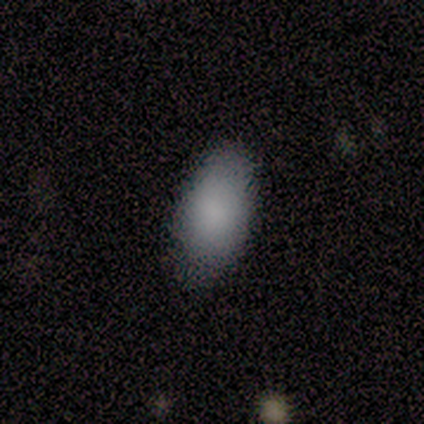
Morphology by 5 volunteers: A smooth galaxy with no disk features (100%) that is in between round and cigar-shaped (80%).

Vote fractions:
- Smooth or featured? smooth: 100% / featured or disk: 0% / star or artifact: 0%
- How rounded? in between: 80% / cigar-shaped: 20% / round: 0%
- Merging? none: 100% / minor disturbance: 0% / major disturbance: 0% / merger: 0%